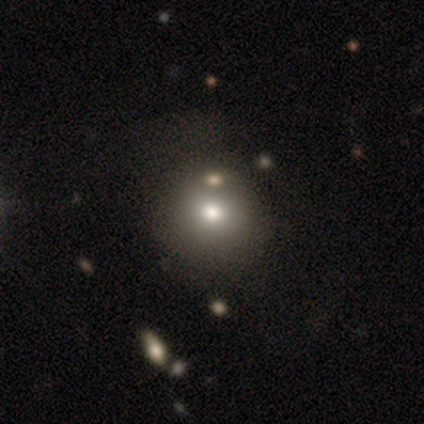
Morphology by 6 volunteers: smooth-or-featured: smooth: 67% | featured or disk: 17% | star or artifact: 17%
  how-rounded: round: 100% | in between: 0% | cigar-shaped: 0%
  merging: major disturbance: 60% | none: 40% | minor disturbance: 0% | merger: 0%